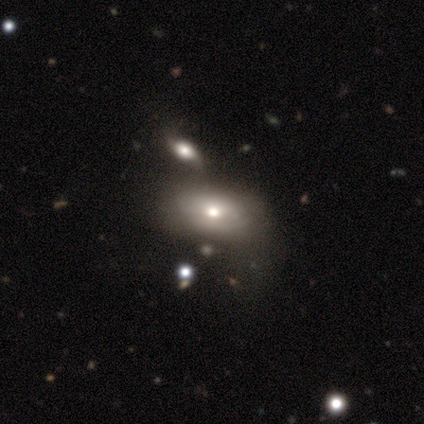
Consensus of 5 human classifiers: A featured or disk galaxy (80%) with no bar (75%), 2 (50%, tied with can't tell) tight (50%, tied with medium) spiral arms (50%, tied with no) and a moderate central bulge (50%, tied with small). Merging: none (50%, tied with minor disturbance).